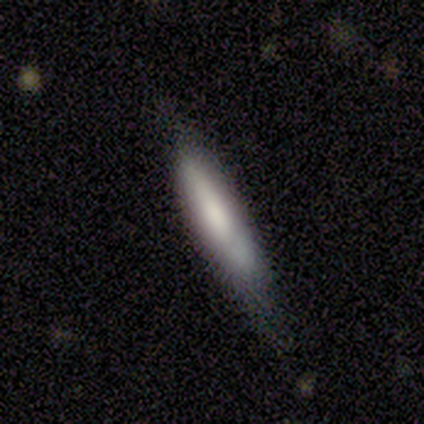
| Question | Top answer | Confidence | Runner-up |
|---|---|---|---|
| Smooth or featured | smooth | 67% | featured or disk (33%) |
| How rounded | in between | 50% | tied: cigar-shaped (50%) |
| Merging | none | 67% | major disturbance (33%) |